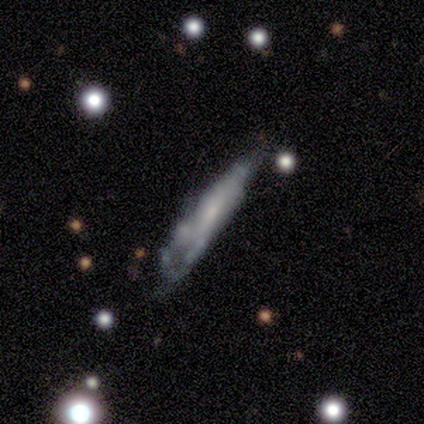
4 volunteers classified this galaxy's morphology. smooth_or_featured: featured or disk (p=0.75) [alt: smooth p=0.25]
disk_edge_on: no (p=1.00)
bar: no (p=1.00)
has_spiral_arms: no (p=0.67) [alt: yes p=0.33]
bulge_size: moderate (p=0.33) [tied with: small p=0.33, none p=0.33]
merging: none (p=0.25) [tied with: minor disturbance p=0.25, major disturbance p=0.25, merger p=0.25]